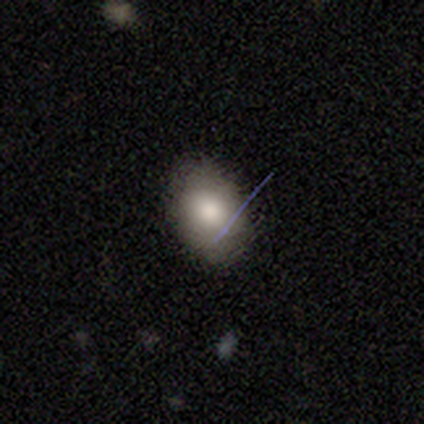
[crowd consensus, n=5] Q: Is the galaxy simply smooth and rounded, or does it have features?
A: smooth — 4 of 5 (80%).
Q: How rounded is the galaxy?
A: in between — 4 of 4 (100%).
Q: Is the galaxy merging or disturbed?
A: none — 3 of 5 (60%).